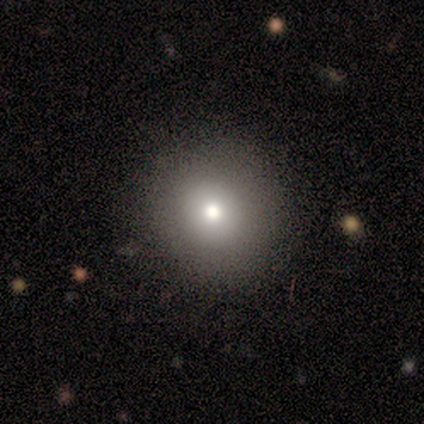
Smooth or featured? 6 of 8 (75%) said smooth. How rounded? 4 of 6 (67%) said round. Merging? 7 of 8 (88%) said none.